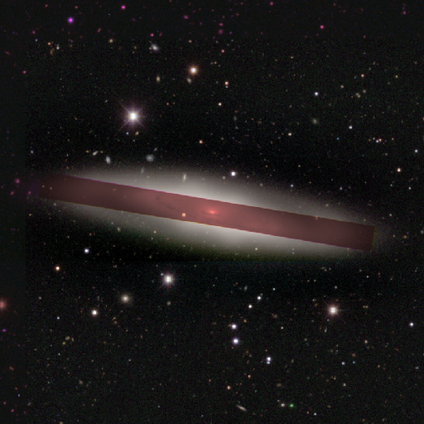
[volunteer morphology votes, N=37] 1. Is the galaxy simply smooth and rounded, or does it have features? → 49% featured or disk, 32% star or artifact, 19% smooth.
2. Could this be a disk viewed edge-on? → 56% yes, 44% no.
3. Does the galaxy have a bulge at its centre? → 60% none, 20% boxy, 20% rounded.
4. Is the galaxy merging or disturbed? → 88% none, 8% major disturbance, 4% minor disturbance, 0% merger.